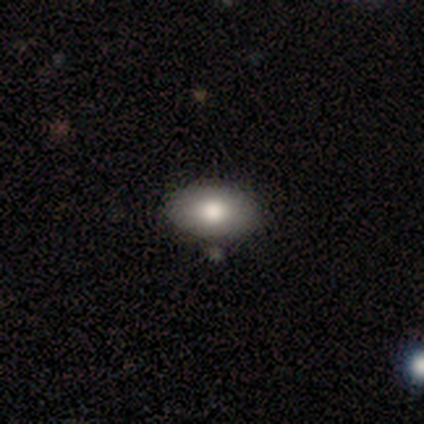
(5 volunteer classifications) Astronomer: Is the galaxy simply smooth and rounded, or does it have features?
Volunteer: smooth — 80%.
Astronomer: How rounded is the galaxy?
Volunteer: in between — 100%.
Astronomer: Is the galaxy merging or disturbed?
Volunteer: none — 100%.